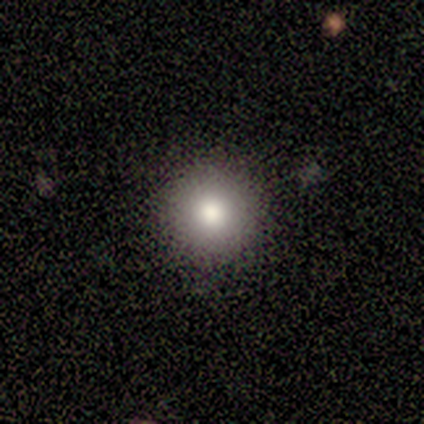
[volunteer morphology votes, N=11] Smooth or featured?
  - smooth: 82% *
  - star or artifact: 18%
  - featured or disk: 0%
How rounded?
  - round: 100% *
  - in between: 0%
  - cigar-shaped: 0%
Merging?
  - none: 78% *
  - minor disturbance: 11%
  - merger: 11%
  - major disturbance: 0%